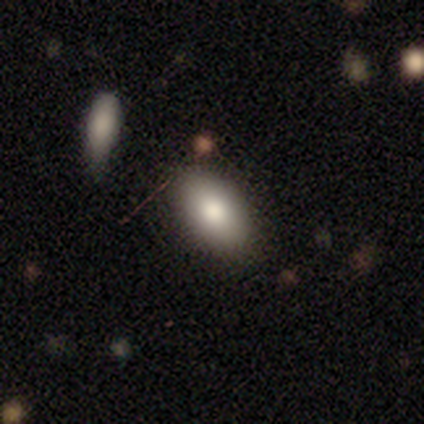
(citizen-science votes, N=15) Q: Smooth or featured?
A: smooth (87%); runner-up: featured or disk (7%)
Q: How rounded?
A: in between (100%)
Q: Merging?
A: none (93%); runner-up: minor disturbance (7%)